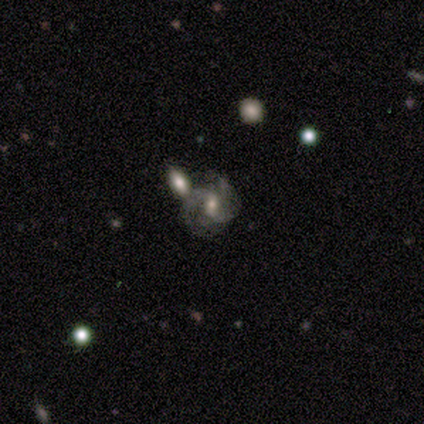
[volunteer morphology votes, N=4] Overall: featured or disk (100%). Edge-on disk: no (100%). Bar: weak (50%; strong 25%). Spiral arms: yes (100%). Spiral arm count: 2 (75%). Spiral winding: medium (50%; tight 25%). Bulge size: none (50%; moderate 25%). Merging: none (75%).